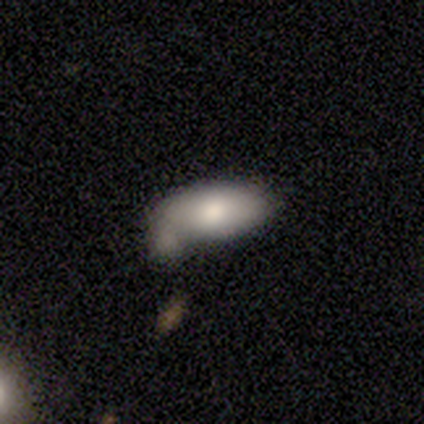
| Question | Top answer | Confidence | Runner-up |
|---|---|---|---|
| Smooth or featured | smooth | 100% | — |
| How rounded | in between | 100% | — |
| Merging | none | 50% | minor disturbance (33%) |